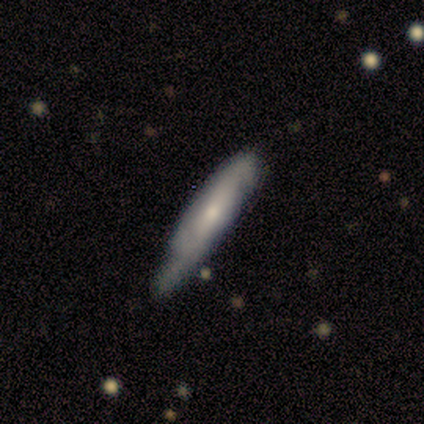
Smooth or featured? smooth (100%)
How rounded? cigar-shaped (100%)
Merging? none (60%)